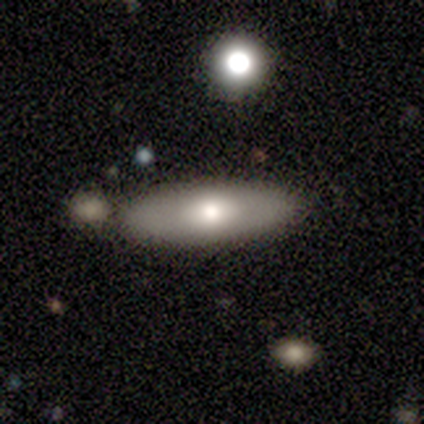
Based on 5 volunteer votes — This is clearly a featured or disk galaxy (80%). It is likely not viewed edge-on (75%). Bar: clearly no (100%). Spiral arm pattern: clearly no (100%). Central bulge: likely moderate (67%). Merging: clearly none (80%).